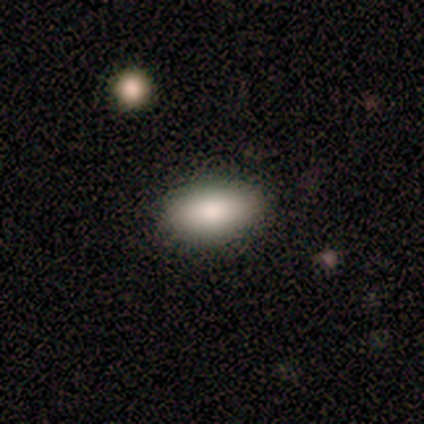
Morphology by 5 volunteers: Volunteers were most divided on "merging": none: 80%, minor disturbance: 20%, major disturbance: 0%, merger: 0%. More confident: smooth or featured — smooth (100%); how rounded — in between (100%).